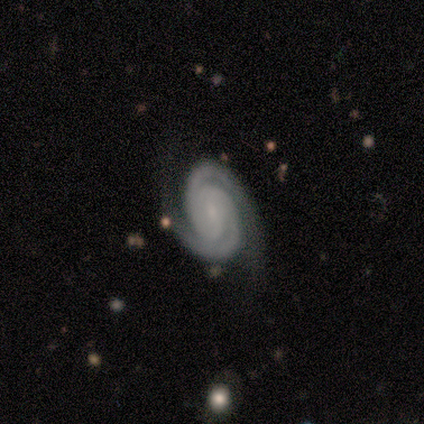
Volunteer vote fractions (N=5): Smooth or featured?
  - featured or disk: 100% *
  - smooth: 0%
  - star or artifact: 0%
Edge-on disk?
  - no: 100% *
  - yes: 0%
Bar?
  - no: 60% *
  - strong: 20%
  - weak: 20%
Spiral arms?
  - yes: 100% *
  - no: 0%
Spiral winding?
  - tight: 80% *
  - medium: 20%
  - loose: 0%
Spiral arm count?
  - 2: 100% *
  - 1: 0%
  - 3: 0%
  - 4: 0%
  - more than 4: 0%
  - can't tell: 0%
Bulge size?
  - small: 80% *
  - moderate: 20%
  - dominant: 0%
  - large: 0%
  - none: 0%
Merging?
  - none: 60% *
  - minor disturbance: 20%
  - major disturbance: 20%
  - merger: 0%